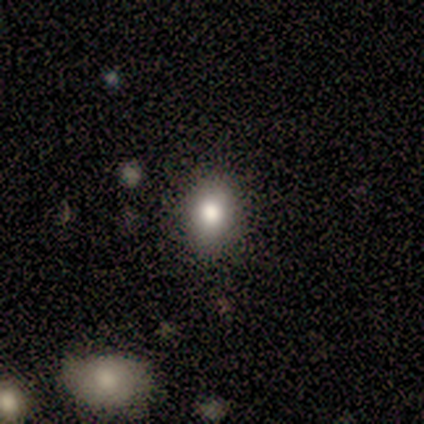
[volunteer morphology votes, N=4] smooth-or-featured: smooth: 100% | featured or disk: 0% | star or artifact: 0%
  how-rounded: in between: 75% | round: 25% | cigar-shaped: 0%
  merging: none: 100% | minor disturbance: 0% | major disturbance: 0% | merger: 0%